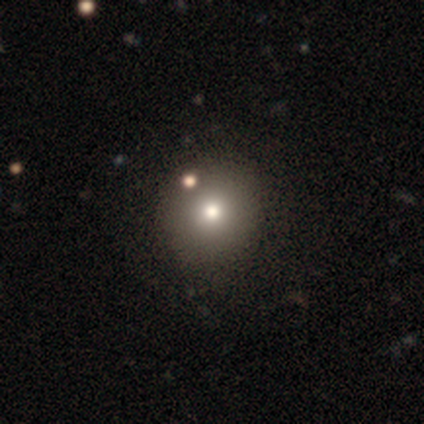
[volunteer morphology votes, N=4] Smooth or featured?
  - featured or disk: 50% *
  - smooth: 25%
  - star or artifact: 25%
Edge-on disk?
  - no: 100% *
  - yes: 0%
Bar?
  - no: 100% *
  - strong: 0%
  - weak: 0%
Spiral arms?
  - no: 100% *
  - yes: 0%
Bulge size?
  - moderate: 100% *
  - dominant: 0%
  - large: 0%
  - small: 0%
  - none: 0%
Merging?
  - none: 100% *
  - minor disturbance: 0%
  - major disturbance: 0%
  - merger: 0%